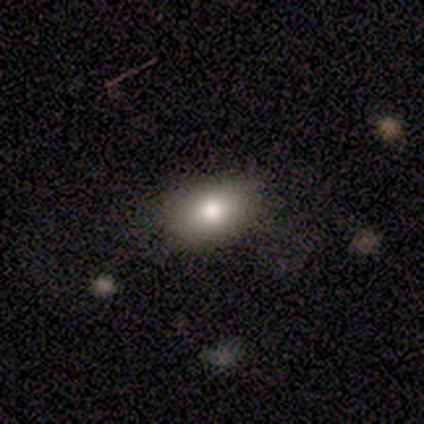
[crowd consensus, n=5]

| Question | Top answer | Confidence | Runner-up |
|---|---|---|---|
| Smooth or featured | star or artifact | 60% | smooth (40%) |